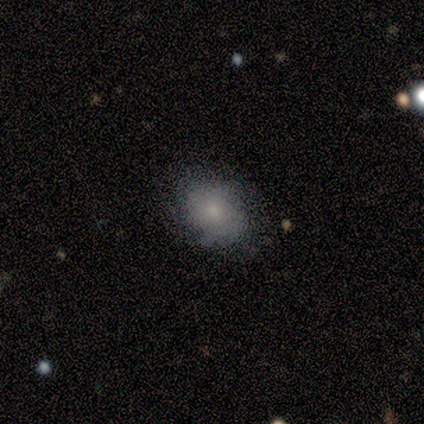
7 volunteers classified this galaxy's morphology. Smooth or featured? 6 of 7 (86%) said smooth. How rounded? 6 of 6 (100%) said in between. Merging? 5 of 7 (71%) said none.